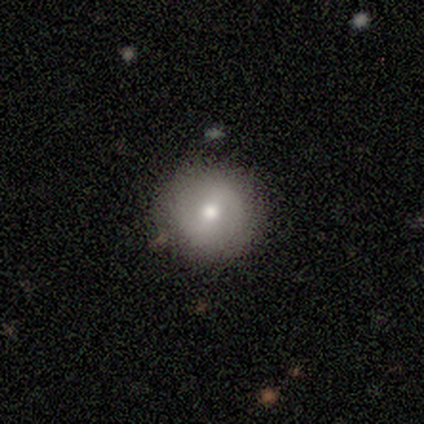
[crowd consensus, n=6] A smooth galaxy with no disk features (67%) that is round (100%). Merging: none (100%).